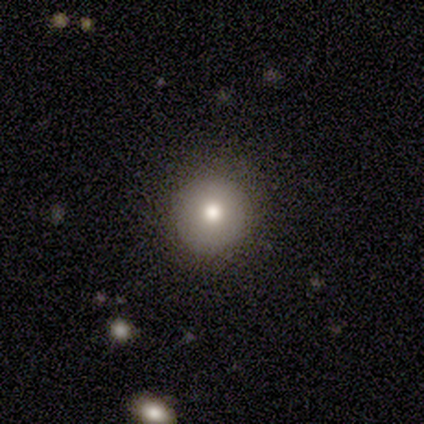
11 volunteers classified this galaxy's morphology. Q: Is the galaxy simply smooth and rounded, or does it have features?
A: smooth — 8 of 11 (73%).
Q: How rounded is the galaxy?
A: round — 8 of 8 (100%).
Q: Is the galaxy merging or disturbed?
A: none — 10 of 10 (100%).